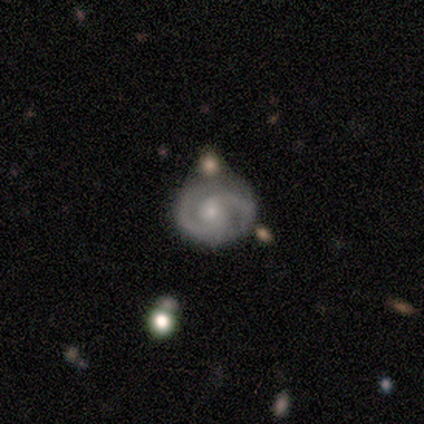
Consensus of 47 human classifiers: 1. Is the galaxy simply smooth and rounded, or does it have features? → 83% featured or disk, 13% smooth, 4% star or artifact.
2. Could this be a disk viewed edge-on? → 100% no, 0% yes.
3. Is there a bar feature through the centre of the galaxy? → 77% no, 23% weak, 0% strong.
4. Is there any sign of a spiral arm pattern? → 95% yes, 5% no.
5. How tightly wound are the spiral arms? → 54% medium, 43% tight, 3% loose.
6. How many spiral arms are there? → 92% 2, 5% 1, 3% 3, 0% 4, 0% more than 4, 0% can't tell.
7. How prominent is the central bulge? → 77% small, 21% moderate, 3% large, 0% dominant, 0% none.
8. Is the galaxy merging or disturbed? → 73% none, 13% minor disturbance, 9% merger, 4% major disturbance.